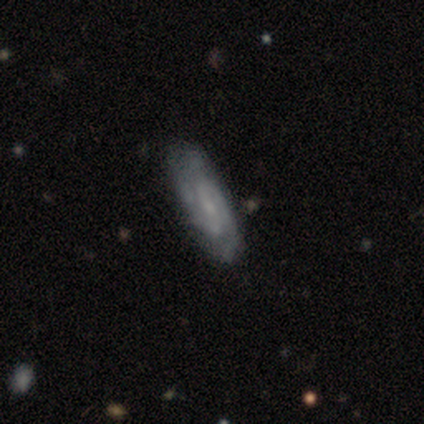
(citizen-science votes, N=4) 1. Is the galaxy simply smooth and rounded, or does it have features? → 100% featured or disk, 0% smooth, 0% star or artifact.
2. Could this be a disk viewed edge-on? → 100% no, 0% yes.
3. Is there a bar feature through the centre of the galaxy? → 50% no, 25% strong, 25% weak.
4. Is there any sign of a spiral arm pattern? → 100% yes, 0% no.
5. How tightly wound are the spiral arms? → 75% medium, 25% tight, 0% loose.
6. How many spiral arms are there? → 75% 2, 25% 3, 0% 1, 0% 4, 0% more than 4, 0% can't tell.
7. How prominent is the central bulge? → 50% small, 25% moderate, 25% none, 0% dominant, 0% large.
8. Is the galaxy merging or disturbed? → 75% none, 25% minor disturbance, 0% major disturbance, 0% merger.